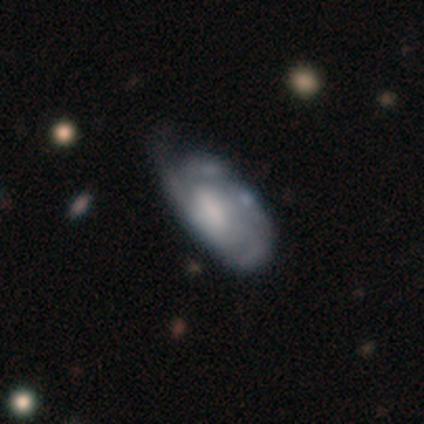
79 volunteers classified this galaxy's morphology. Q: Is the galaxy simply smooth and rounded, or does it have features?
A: featured or disk — 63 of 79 (80%).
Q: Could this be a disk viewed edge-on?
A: no — 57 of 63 (90%).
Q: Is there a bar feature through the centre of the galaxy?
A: weak — 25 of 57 (44%, tied with no).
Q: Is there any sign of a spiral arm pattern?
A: yes — 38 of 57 (67%).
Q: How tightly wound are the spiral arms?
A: tight — 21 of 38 (55%).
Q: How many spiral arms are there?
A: can't tell — 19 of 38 (50%).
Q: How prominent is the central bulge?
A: moderate — 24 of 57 (42%).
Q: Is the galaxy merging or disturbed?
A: minor disturbance — 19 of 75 (25%).